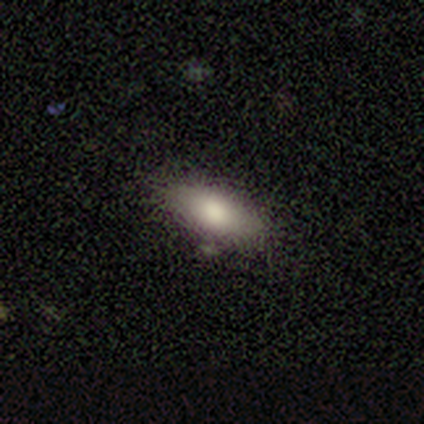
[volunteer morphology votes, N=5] smooth 100%, featured or disk 0%, star or artifact 0%. Down the decision tree: how rounded — in between (80%); merging — none (80%).